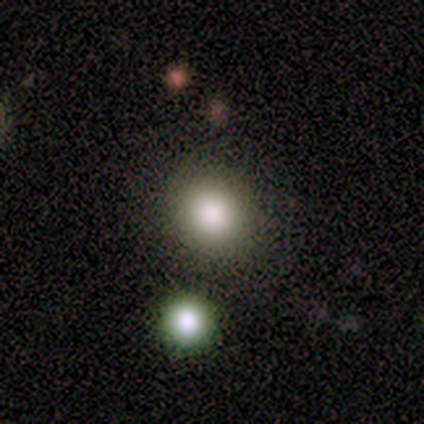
Volunteers were most divided on "merging": none: 80%, merger: 20%, minor disturbance: 0%, major disturbance: 0%. More confident: smooth or featured — smooth (100%); how rounded — round (100%).